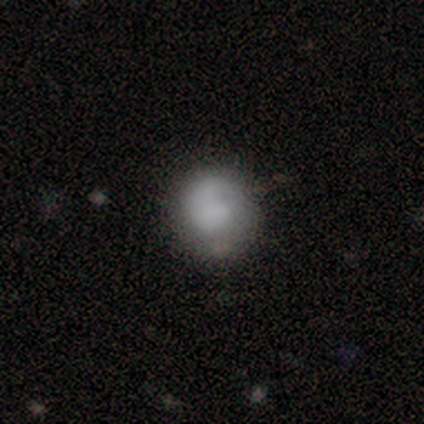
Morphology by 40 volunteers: type=smooth (78%); roundness=round (90%); merging=none (59%).